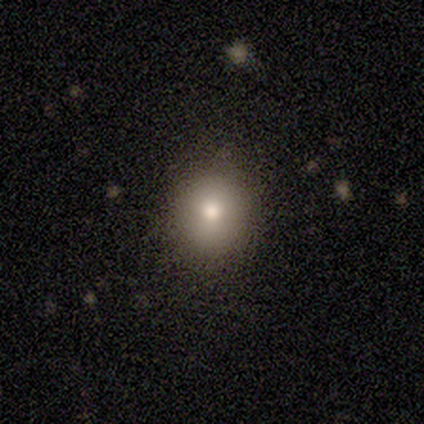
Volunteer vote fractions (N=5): smooth_or_featured: smooth (p=1.00)
how_rounded: round (p=1.00)
merging: none (p=0.80) [alt: minor disturbance p=0.20]